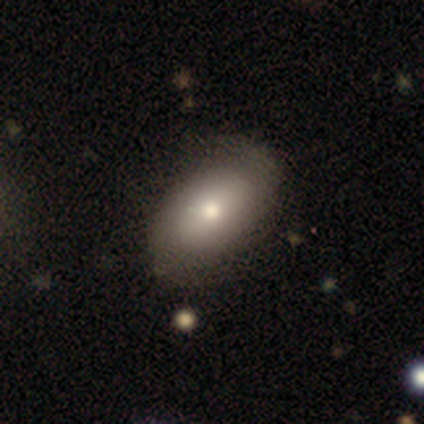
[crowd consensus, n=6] Smooth or featured?
  - featured or disk: 50% *
  - smooth: 33%
  - star or artifact: 17%
Edge-on disk?
  - no: 100% *
  - yes: 0%
Bar?
  - no: 100% *
  - strong: 0%
  - weak: 0%
Spiral arms?
  - yes: 67% *
  - no: 33%
Spiral winding?
  - tight: 50% * (tied)
  - medium: 50% * (tied)
  - loose: 0%
Spiral arm count?
  - 2: 50% * (tied)
  - can't tell: 50% * (tied)
  - 1: 0%
  - 3: 0%
  - 4: 0%
  - more than 4: 0%
Bulge size?
  - moderate: 67% *
  - dominant: 33%
  - large: 0%
  - small: 0%
  - none: 0%
Merging?
  - none: 100% *
  - minor disturbance: 0%
  - major disturbance: 0%
  - merger: 0%